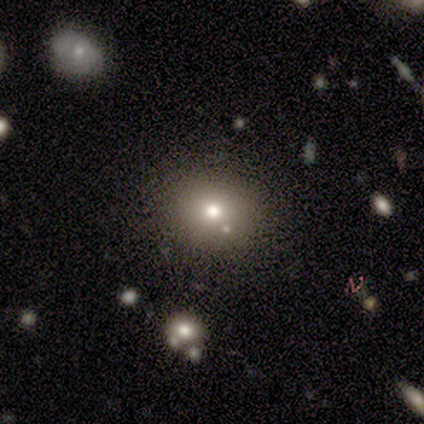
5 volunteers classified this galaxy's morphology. A smooth galaxy with no disk features (80%) that is round (75%).

Vote fractions:
- Smooth or featured? smooth: 80% / featured or disk: 20% / star or artifact: 0%
- How rounded? round: 75% / in between: 25% / cigar-shaped: 0%
- Merging? minor disturbance: 60% / none: 40% / major disturbance: 0% / merger: 0%